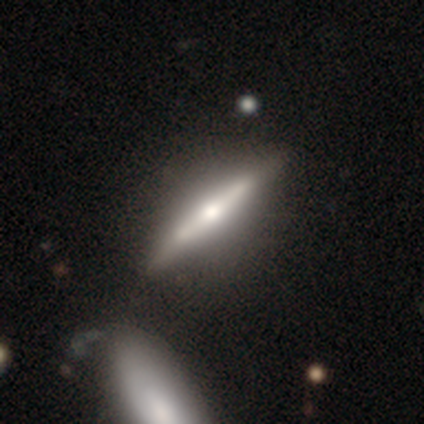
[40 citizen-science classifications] Overall: featured or disk (75%). Edge-on disk: yes (100%). Edge-on bulge: rounded (90%). Merging: none (43%; merger 19%).